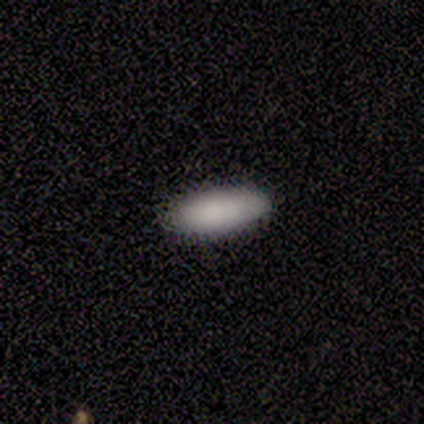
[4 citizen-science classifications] This appears to be a smooth galaxy with no disk features (75%) that is in between round and cigar-shaped (67%). Merging: none (75%).